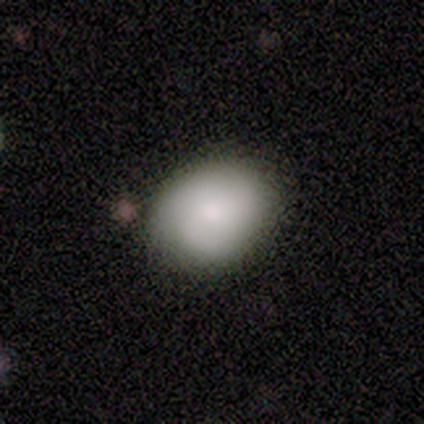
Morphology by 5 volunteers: Smooth or featured?
  - smooth: 80% *
  - featured or disk: 20%
  - star or artifact: 0%
How rounded?
  - round: 50% * (tied)
  - in between: 50% * (tied)
  - cigar-shaped: 0%
Merging?
  - none: 60% *
  - minor disturbance: 20%
  - major disturbance: 20%
  - merger: 0%